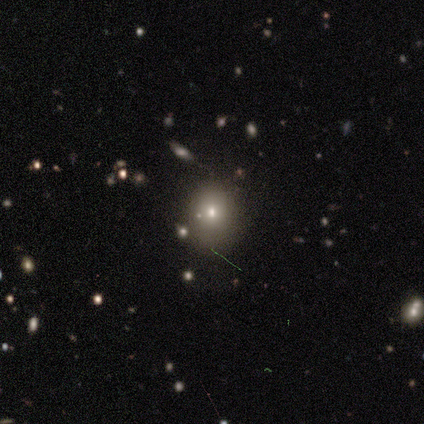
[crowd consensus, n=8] Smooth or featured: smooth — 88% (featured or disk — 12%)
How rounded: round — 71% (in between — 29%)
Merging: none — 50% (minor disturbance — 25%)